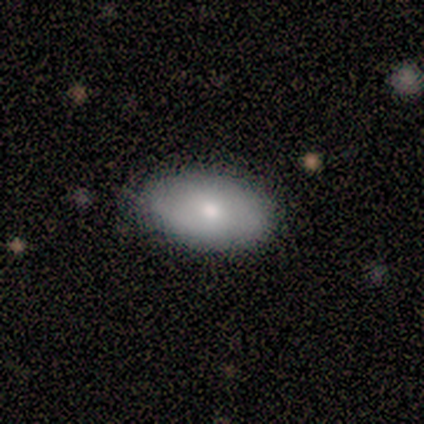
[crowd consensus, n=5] A smooth galaxy with no disk features (80%) that is in between round and cigar-shaped (100%).

Vote fractions:
- Smooth or featured? smooth: 80% / featured or disk: 20% / star or artifact: 0%
- How rounded? in between: 100% / round: 0% / cigar-shaped: 0%
- Merging? none: 100% / minor disturbance: 0% / major disturbance: 0% / merger: 0%